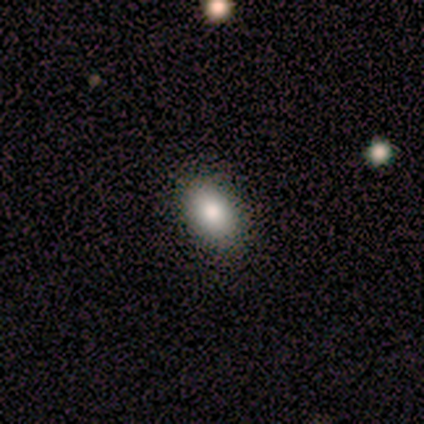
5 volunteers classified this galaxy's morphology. smooth 100%, featured or disk 0%, star or artifact 0%. Down the decision tree: how rounded — in between (80%); merging — none (100%).